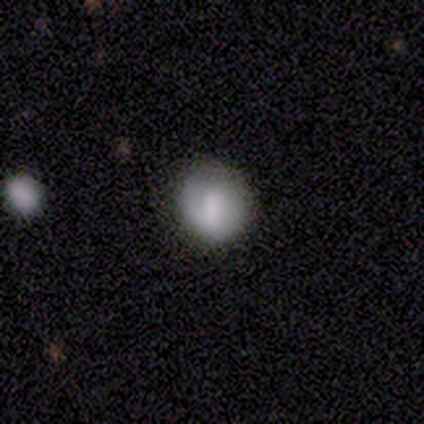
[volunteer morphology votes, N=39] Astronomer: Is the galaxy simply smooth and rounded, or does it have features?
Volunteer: smooth — 79%.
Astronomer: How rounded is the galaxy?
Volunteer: round — 77%.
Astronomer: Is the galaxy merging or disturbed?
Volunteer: none — 89%.